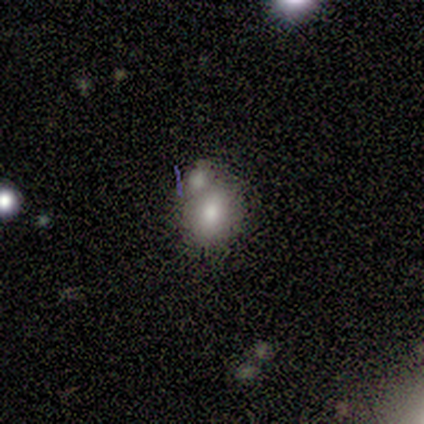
Overall: smooth (80%). How rounded: round (75%). Merging: none (50%, tied with merger).